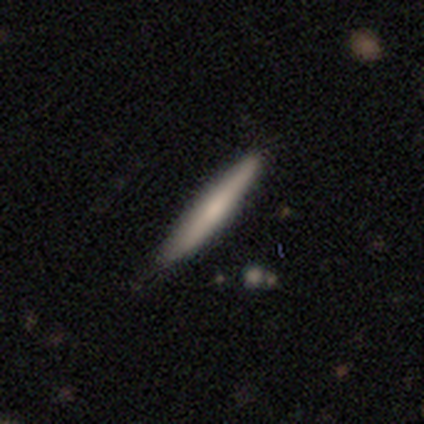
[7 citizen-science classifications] Smooth or featured: smooth — 57% (featured or disk — 43%)
How rounded: cigar-shaped — 75% (round — 25%)
Merging: none — 71% (minor disturbance — 29%)